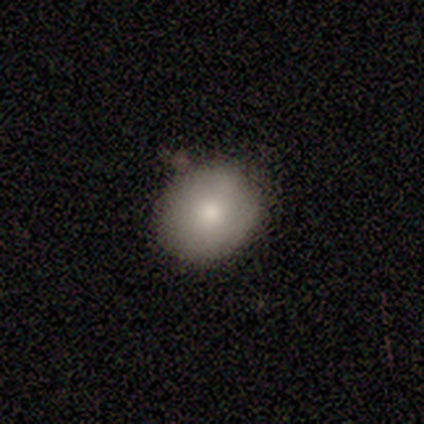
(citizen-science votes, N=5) Overall: smooth (80%). How rounded: round (75%). Merging: none (80%).